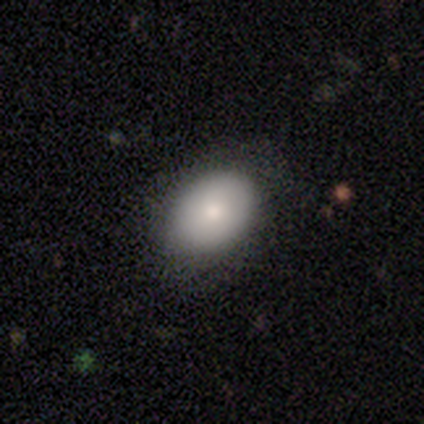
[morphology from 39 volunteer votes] Smooth or featured? 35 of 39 (90%) said smooth. How rounded? 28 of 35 (80%) said in between. Merging? 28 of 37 (76%) said none.